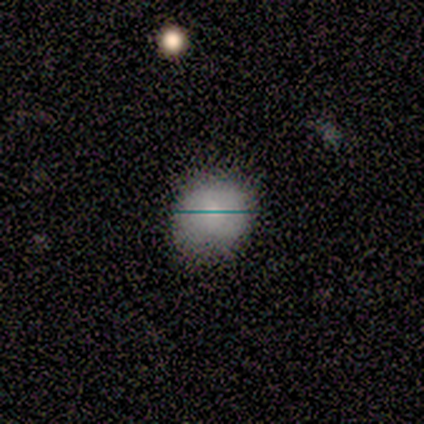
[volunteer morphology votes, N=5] smooth_or_featured: smooth (p=0.60) [alt: star or artifact p=0.40]
how_rounded: in between (p=0.67) [alt: round p=0.33]
merging: minor disturbance (p=0.67) [alt: none p=0.33]